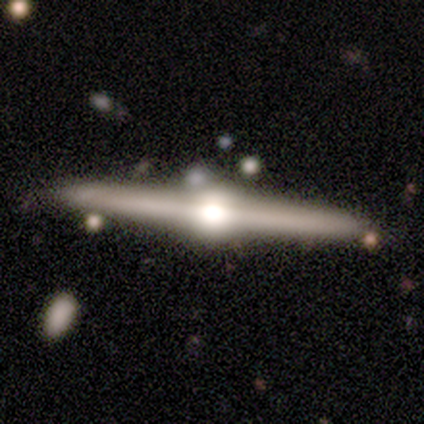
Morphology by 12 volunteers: featured or disk 92%, smooth 8%, star or artifact 0%. Down the decision tree: edge-on disk — yes (100%); edge-on bulge — rounded (100%); merging — none (67%).